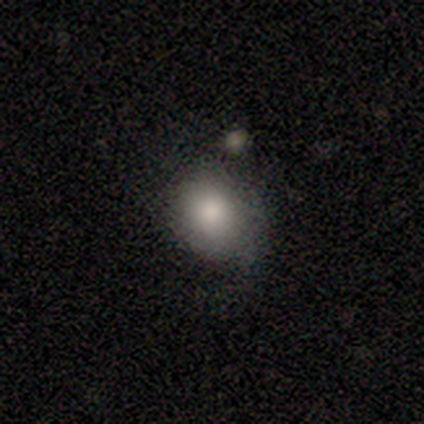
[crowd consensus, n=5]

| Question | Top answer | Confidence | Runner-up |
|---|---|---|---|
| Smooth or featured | smooth | 100% | — |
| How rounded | round | 60% | in between (40%) |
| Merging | minor disturbance | 60% | none (40%) |